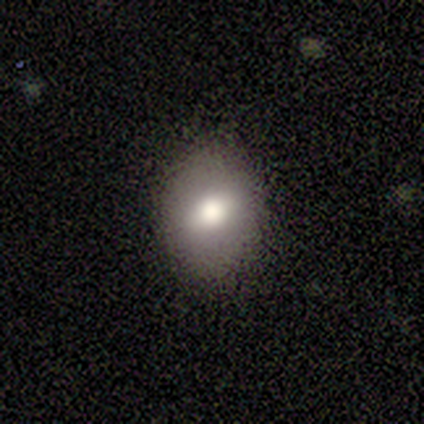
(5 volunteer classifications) A smooth galaxy with no disk features (80%) that is in between round and cigar-shaped (75%). Merging: none (100%).